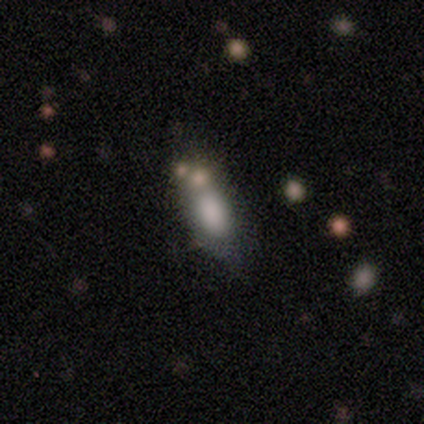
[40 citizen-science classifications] smooth_or_featured: smooth (p=0.80) [alt: featured or disk p=0.17]
how_rounded: in between (p=0.59) [alt: cigar-shaped p=0.31]
merging: none (p=0.38) [alt: minor disturbance p=0.28]